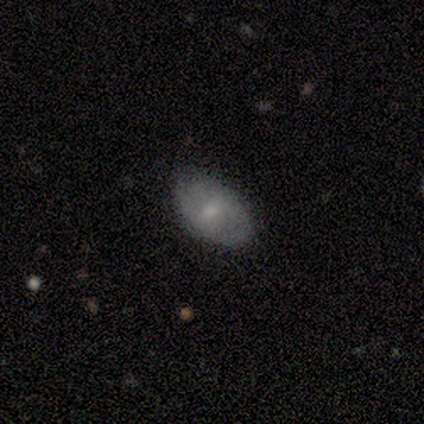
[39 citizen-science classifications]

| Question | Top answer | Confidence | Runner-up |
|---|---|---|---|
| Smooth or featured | smooth | 64% | featured or disk (26%) |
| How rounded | in between | 96% | round (4%) |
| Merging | none | 83% | minor disturbance (11%) |